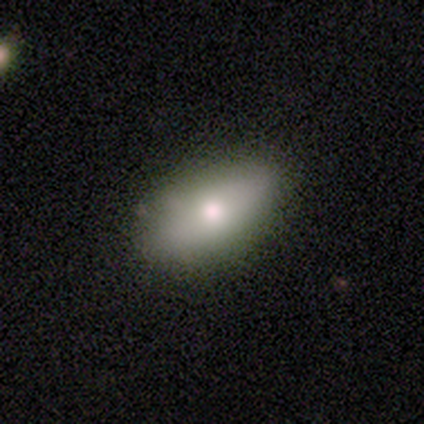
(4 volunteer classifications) smooth_or_featured: smooth (p=1.00)
how_rounded: in between (p=1.00)
merging: none (p=1.00)